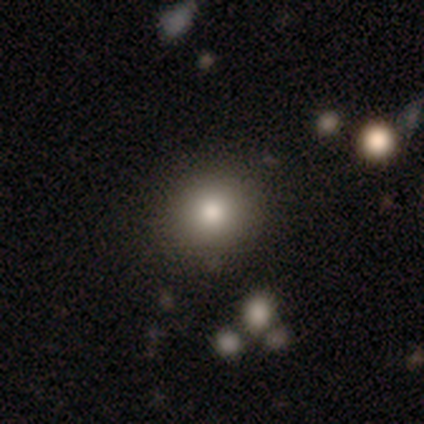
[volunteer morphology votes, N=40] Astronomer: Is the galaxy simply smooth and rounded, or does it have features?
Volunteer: smooth — 82%.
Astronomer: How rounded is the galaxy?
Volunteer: round — 82%.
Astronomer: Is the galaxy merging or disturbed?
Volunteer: none — 83%.